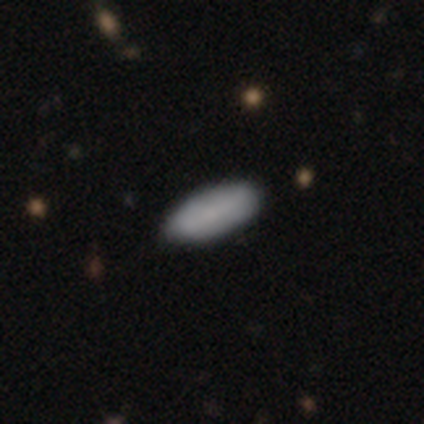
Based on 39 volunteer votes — Q: Smooth or featured?
A: smooth (90%); runner-up: featured or disk (10%)
Q: How rounded?
A: in between (80%); runner-up: cigar-shaped (20%)
Q: Merging?
A: none (77%); runner-up: minor disturbance (21%)